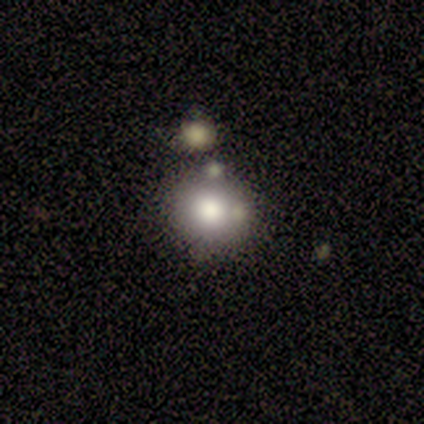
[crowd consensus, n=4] Smooth or featured? smooth (100%)
How rounded? round (100%)
Merging? none (75%)